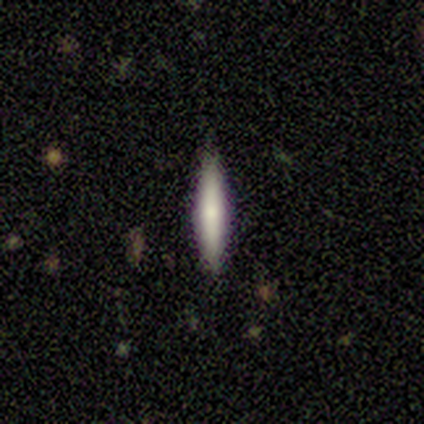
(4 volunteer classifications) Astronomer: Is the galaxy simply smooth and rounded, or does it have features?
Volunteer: smooth — 75%.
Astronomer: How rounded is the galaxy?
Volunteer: cigar-shaped — 100%.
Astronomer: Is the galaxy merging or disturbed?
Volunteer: none — 100%.